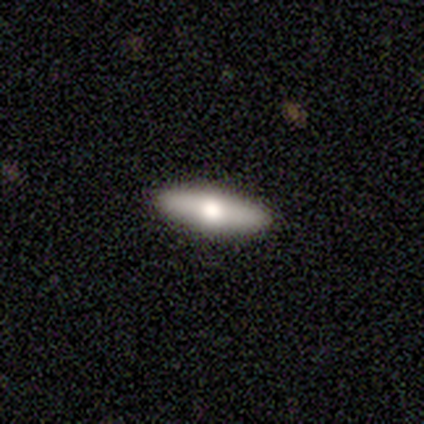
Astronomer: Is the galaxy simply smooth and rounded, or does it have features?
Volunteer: smooth — 60% (runner-up: featured or disk, 40%).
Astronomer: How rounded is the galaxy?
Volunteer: cigar-shaped — 67%.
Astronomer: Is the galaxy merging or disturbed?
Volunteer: none — 100%.